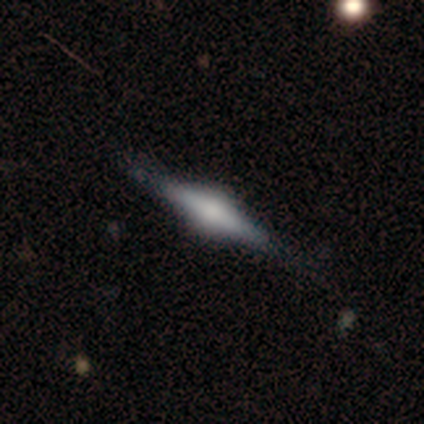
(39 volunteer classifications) This is clearly a featured or disk galaxy (87%). It is clearly viewed edge-on (97%). Edge-on bulge: clearly rounded (85%). Merging: clearly none (92%).